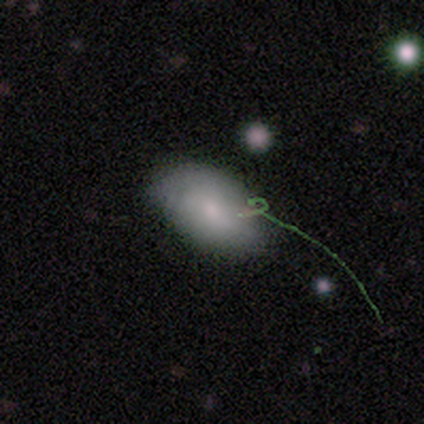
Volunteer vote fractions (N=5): Morphology: type=smooth (60%); roundness=in between (100%); merging=none (50%, tied with minor disturbance).